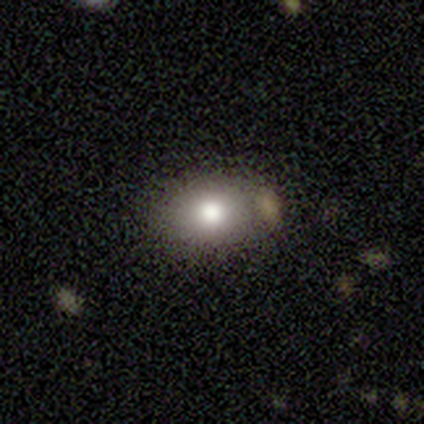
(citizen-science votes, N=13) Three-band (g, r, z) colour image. It shows a smooth galaxy with no disk features (85%) that is in between round and cigar-shaped (91%). Merging: none (58%).